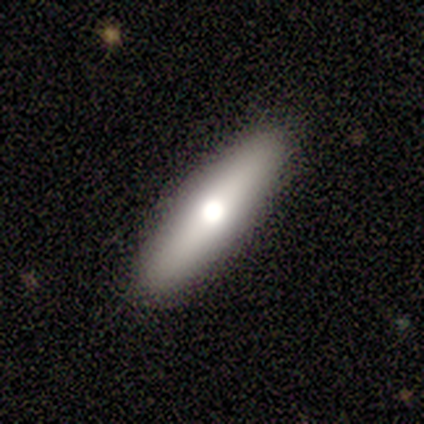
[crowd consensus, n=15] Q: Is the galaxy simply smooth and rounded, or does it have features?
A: smooth — 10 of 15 (67%).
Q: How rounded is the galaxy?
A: cigar-shaped — 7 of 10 (70%).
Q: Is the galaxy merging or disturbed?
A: none — 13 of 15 (87%).